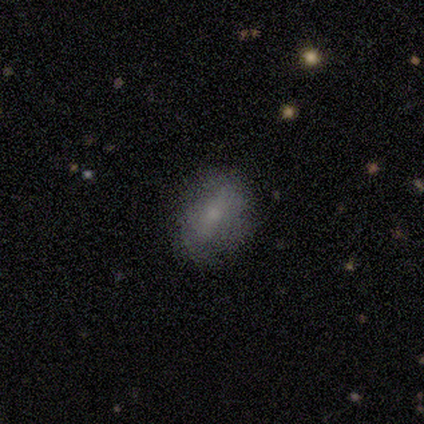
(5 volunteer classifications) Morphology: type=smooth (80%); roundness=in between (75%); merging=none (100%).